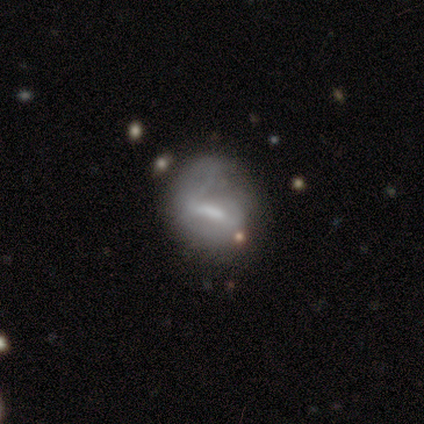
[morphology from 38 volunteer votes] Smooth or featured? 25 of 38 (66%) said featured or disk. Edge-on disk? 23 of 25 (92%) said no. Bar? 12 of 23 (52%) said strong. Spiral arms? 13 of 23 (57%) said no. Bulge size? 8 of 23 (35%, tied with none) said moderate. Merging? 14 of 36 (39%) said minor disturbance.